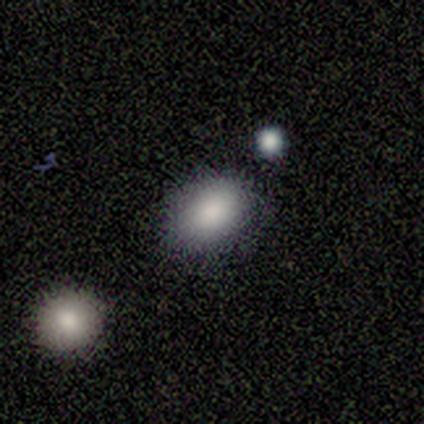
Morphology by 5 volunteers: Q: Smooth or featured?
A: smooth (100%)
Q: How rounded?
A: in between (60%); runner-up: round (40%)
Q: Merging?
A: none (80%); runner-up: minor disturbance (20%)